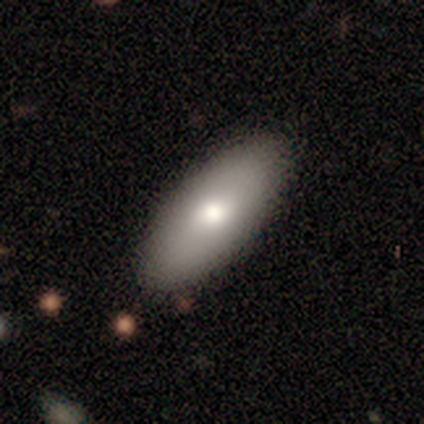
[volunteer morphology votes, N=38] Q: Smooth or featured?
A: smooth (71%); runner-up: featured or disk (24%)
Q: How rounded?
A: in between (89%); runner-up: cigar-shaped (11%)
Q: Merging?
A: none (89%); runner-up: minor disturbance (8%)